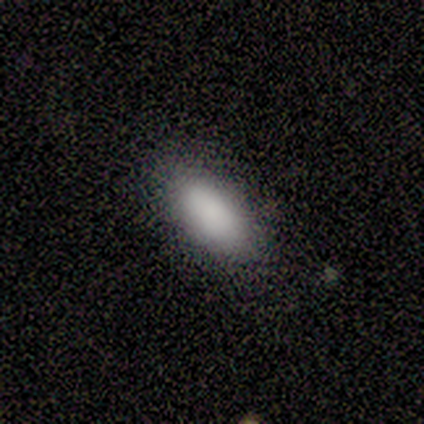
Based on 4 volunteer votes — smooth 100%, featured or disk 0%, star or artifact 0%. Down the decision tree: how rounded — in between (75%); merging — none (100%).